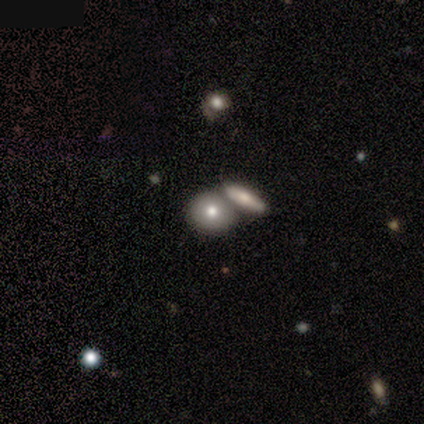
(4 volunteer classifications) smooth-or-featured: featured or disk: 50% | smooth: 25% | star or artifact: 25%
  disk-edge-on: no: 100% | yes: 0%
    bar: no: 100% | strong: 0% | weak: 0%
    has-spiral-arms: no: 100% | yes: 0%
    bulge-size: moderate: 100% | dominant: 0% | large: 0% | small: 0% | none: 0%
  merging: merger: 67% | minor disturbance: 33% | none: 0% | major disturbance: 0%